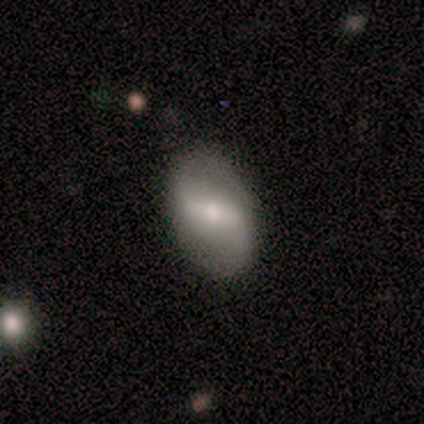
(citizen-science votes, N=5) smooth-or-featured: featured or disk: 80% | smooth: 20% | star or artifact: 0%
  disk-edge-on: no: 100% | yes: 0%
    bar: strong: 75% | weak: 25% | no: 0%
    has-spiral-arms: yes: 50% (tied) | no: 50% (tied)
      spiral-winding: loose: 100% | tight: 0% | medium: 0%
      spiral-arm-count: 2: 100% | 1: 0% | 3: 0% | 4: 0% | more than 4: 0% | can't tell: 0%
    bulge-size: moderate: 50% (tied) | small: 50% (tied) | dominant: 0% | large: 0% | none: 0%
  merging: none: 60% | minor disturbance: 20% | major disturbance: 20% | merger: 0%